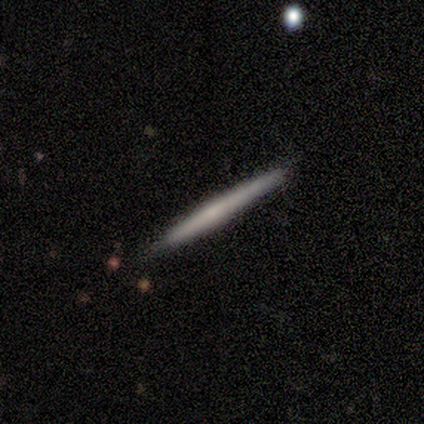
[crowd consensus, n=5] This is likely a featured or disk galaxy (60%). It is clearly viewed edge-on (100%). Edge-on bulge: likely rounded (67%). Merging: clearly none (100%).